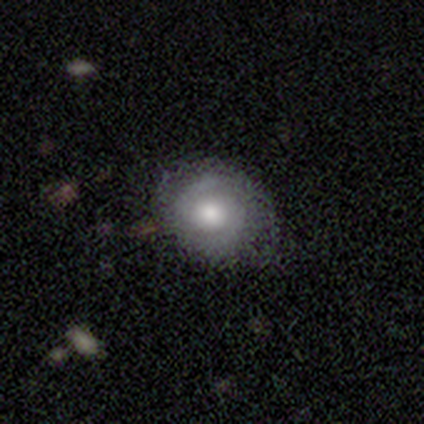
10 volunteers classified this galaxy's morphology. Smooth or featured? featured or disk (70%)
Edge-on disk? no (100%)
Bar? no (86%)
Spiral arms? yes (71%)
Spiral winding? tight (40%, tied with loose)
Spiral arm count? 2 (80%)
Bulge size? moderate (57%)
Merging? none (90%)